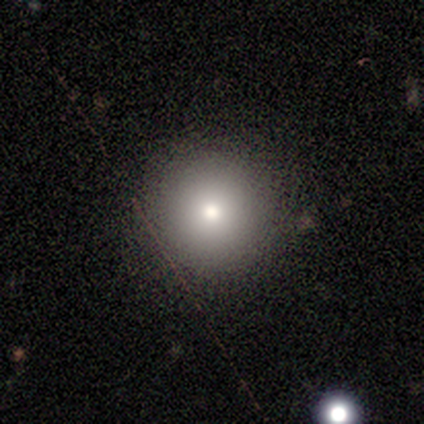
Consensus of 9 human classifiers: Overall: smooth (67%). How rounded: round (100%). Merging: none (100%).